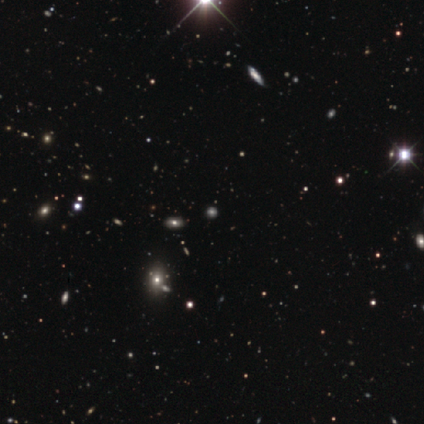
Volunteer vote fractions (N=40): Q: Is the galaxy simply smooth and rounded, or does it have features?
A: star or artifact — 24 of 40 (60%).